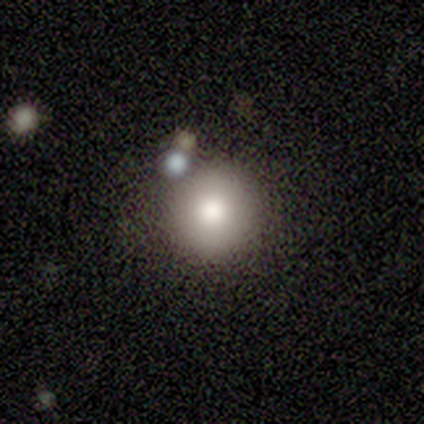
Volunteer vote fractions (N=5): Smooth or featured: featured or disk — 60% (smooth — 40%)
Edge-on disk: no — 67% (yes — 33%)
Bar: no — 100%
Spiral arms: no — 100%
Bulge size: moderate — 100%
Merging: none — 80% (minor disturbance — 20%)